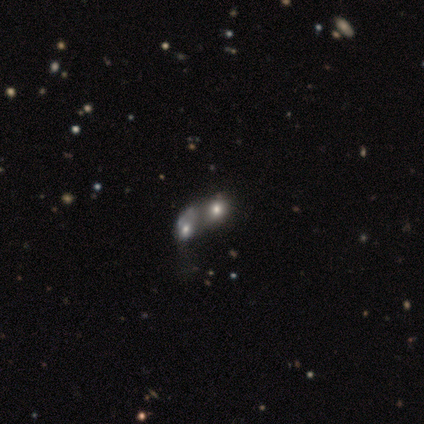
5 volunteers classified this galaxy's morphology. Smooth or featured: smooth — 60% (featured or disk — 40%)
How rounded: in between — 67% (round — 33%)
Merging: merger — 100%